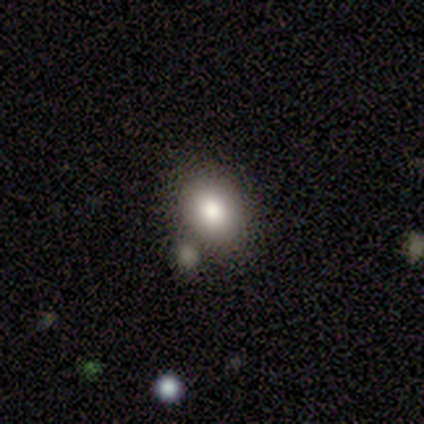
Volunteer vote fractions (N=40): smooth 80%, star or artifact 12%, featured or disk 8%. Down the decision tree: how rounded — in between (56%); merging — none (83%).